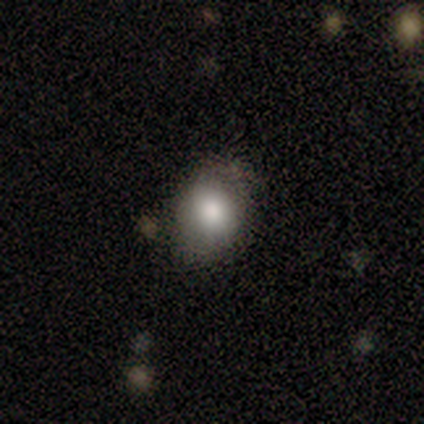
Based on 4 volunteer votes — A smooth galaxy with no disk features (75%) that is round (67%). Merging: none (50%, tied with minor disturbance).